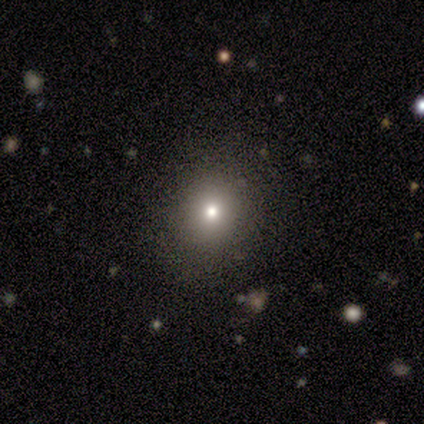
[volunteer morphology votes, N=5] Smooth or featured? 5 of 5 (100%) said smooth. How rounded? 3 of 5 (60%) said round. Merging? 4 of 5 (80%) said none.